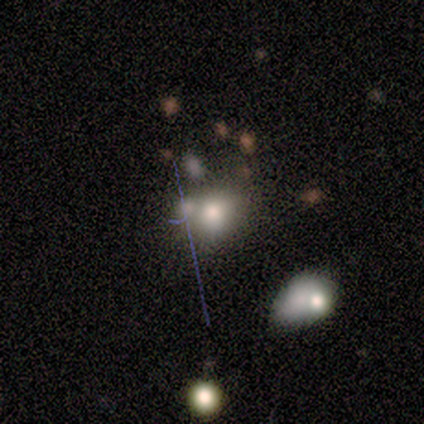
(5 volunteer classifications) Morphology: type=smooth (60%); roundness=round (100%); merging=merger (100%).